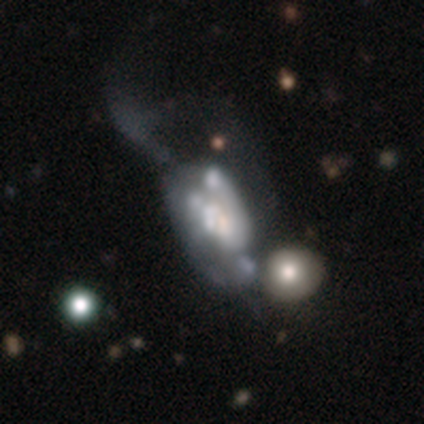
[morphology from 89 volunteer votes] type=featured or disk (73%); edge-on=no (97%); bar=no (86%); spiral arms=no (83%); bulge=none (41%); merging=major disturbance (61%).